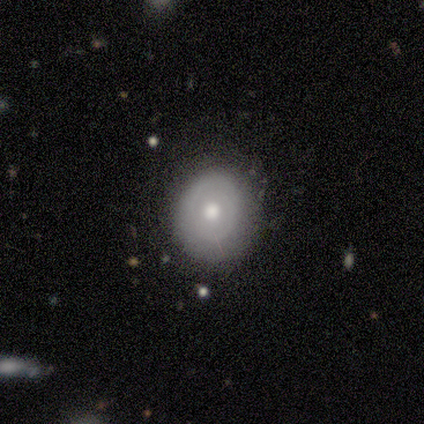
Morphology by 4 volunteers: Q: Smooth or featured?
A: smooth (50%); tied with: featured or disk (50%)
Q: How rounded?
A: round (50%); tied with: in between (50%)
Q: Merging?
A: minor disturbance (50%); runner-up: none (25%)